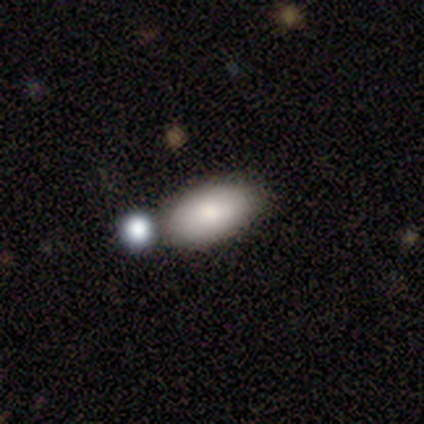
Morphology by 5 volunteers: smooth_or_featured: smooth (p=1.00)
how_rounded: in between (p=1.00)
merging: none (p=0.60) [alt: minor disturbance p=0.20]